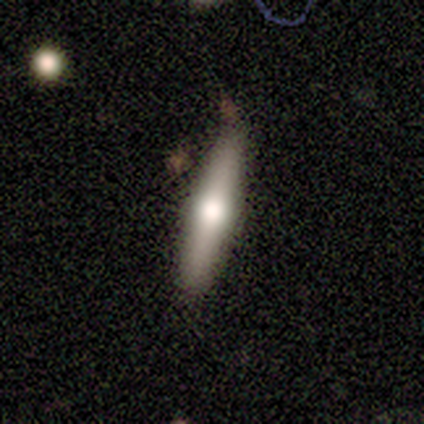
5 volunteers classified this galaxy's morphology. Volunteers were most divided on "smooth or featured": featured or disk: 60%, smooth: 40%, star or artifact: 0%. More confident: edge-on disk — yes (100%); edge-on bulge — rounded (100%); merging — none (60%).